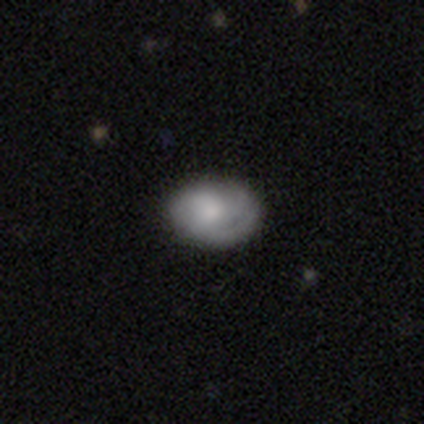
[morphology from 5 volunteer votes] smooth_or_featured: featured or disk (p=0.80) [alt: smooth p=0.20]
disk_edge_on: no (p=1.00)
bar: no (p=1.00)
has_spiral_arms: yes (p=1.00)
spiral_winding: tight (p=0.75) [alt: medium p=0.25]
spiral_arm_count: can't tell (p=0.50) [alt: 2 p=0.25]
bulge_size: moderate (p=0.75) [alt: none p=0.25]
merging: none (p=1.00)